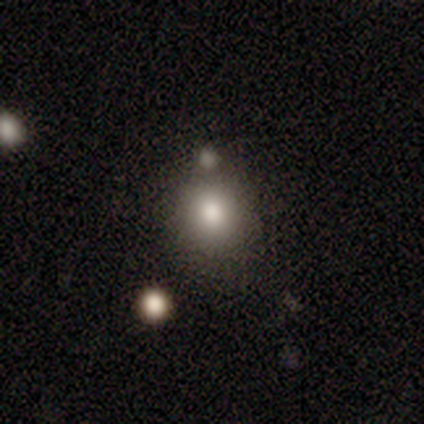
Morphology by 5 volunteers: Overall: smooth (80%). How rounded: round (100%). Merging: none (100%).